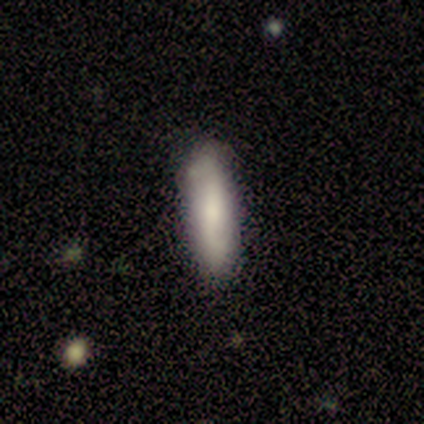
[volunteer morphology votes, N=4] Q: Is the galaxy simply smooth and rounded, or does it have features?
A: smooth — 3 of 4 (75%).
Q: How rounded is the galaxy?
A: in between — 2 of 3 (67%).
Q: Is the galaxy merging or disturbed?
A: none — 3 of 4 (75%).